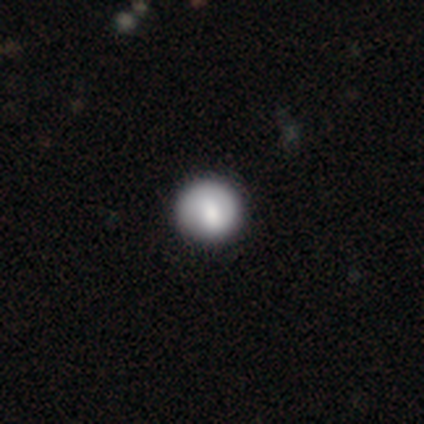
A smooth galaxy with no disk features (40%, tied with featured or disk) that is round (100%).

Vote fractions:
- Smooth or featured? smooth: 40% (tied) / featured or disk: 40% (tied) / star or artifact: 20%
- How rounded? round: 100% / in between: 0% / cigar-shaped: 0%
- Merging? none: 100% / minor disturbance: 0% / major disturbance: 0% / merger: 0%